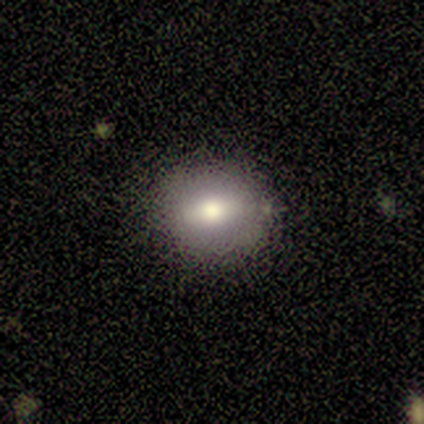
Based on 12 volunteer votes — Smooth or featured?
  - smooth: 83% *
  - featured or disk: 17%
  - star or artifact: 0%
How rounded?
  - in between: 60% *
  - round: 40%
  - cigar-shaped: 0%
Merging?
  - none: 83% *
  - minor disturbance: 17%
  - major disturbance: 0%
  - merger: 0%